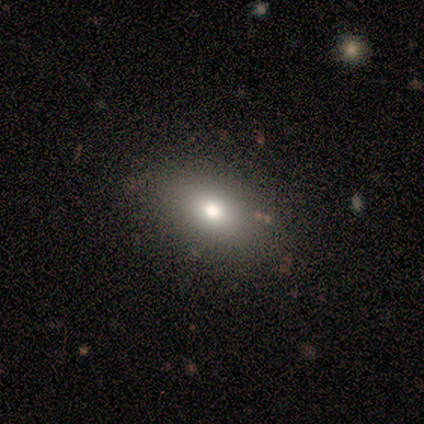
smooth-or-featured: smooth: 80% | star or artifact: 20% | featured or disk: 0%
  how-rounded: in between: 75% | round: 25% | cigar-shaped: 0%
  merging: none: 75% | minor disturbance: 25% | major disturbance: 0% | merger: 0%